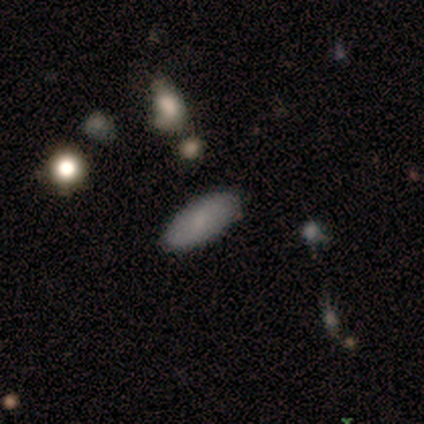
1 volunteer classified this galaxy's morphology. This appears to be a star or artifact, not a galaxy (100%).